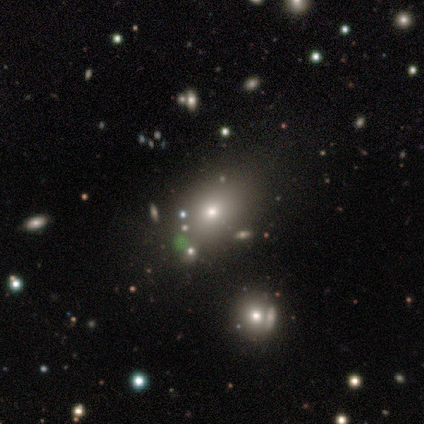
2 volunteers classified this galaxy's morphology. A smooth galaxy with no disk features (100%) that is in between round and cigar-shaped (100%).

Vote fractions:
- Smooth or featured? smooth: 100% / featured or disk: 0% / star or artifact: 0%
- How rounded? in between: 100% / round: 0% / cigar-shaped: 0%
- Merging? none: 100% / minor disturbance: 0% / major disturbance: 0% / merger: 0%